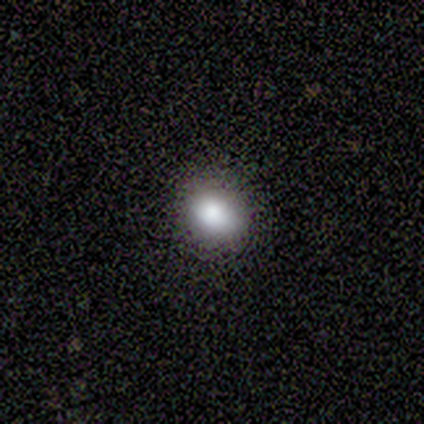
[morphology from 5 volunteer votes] Overall: star or artifact (60%; smooth 40%).